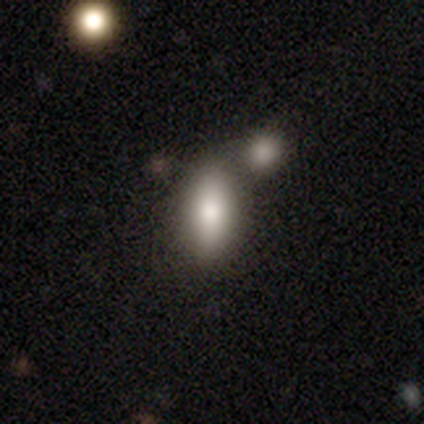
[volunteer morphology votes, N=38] Overall: smooth (87%). How rounded: in between (88%). Merging: none (47%; merger 36%).